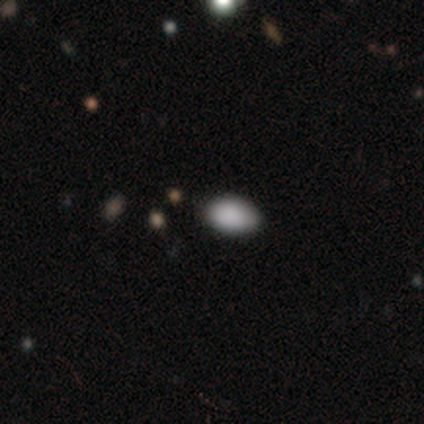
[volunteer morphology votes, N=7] Smooth or featured? smooth (57%)
How rounded? in between (100%)
Merging? none (75%)